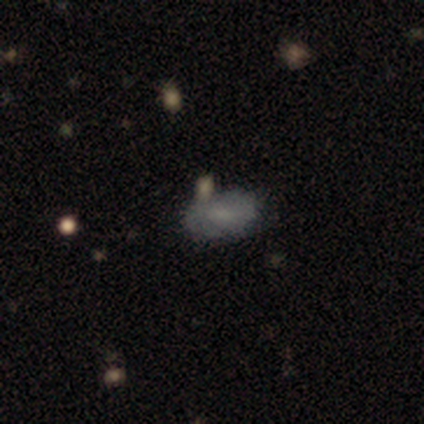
smooth 71%, featured or disk 29%, star or artifact 0%. Down the decision tree: how rounded — in between (100%); merging — none (86%).